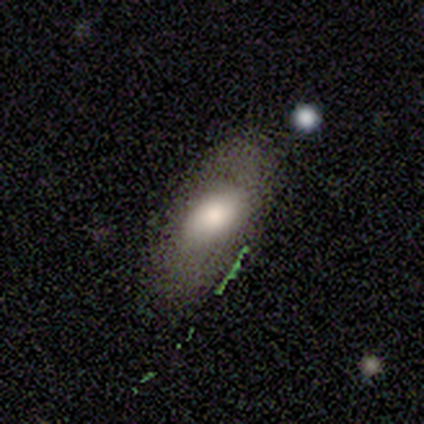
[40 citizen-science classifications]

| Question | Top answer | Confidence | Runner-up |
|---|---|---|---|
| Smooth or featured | smooth | 65% | featured or disk (20%) |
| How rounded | in between | 96% | round (4%) |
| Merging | none | 65% | minor disturbance (21%) |